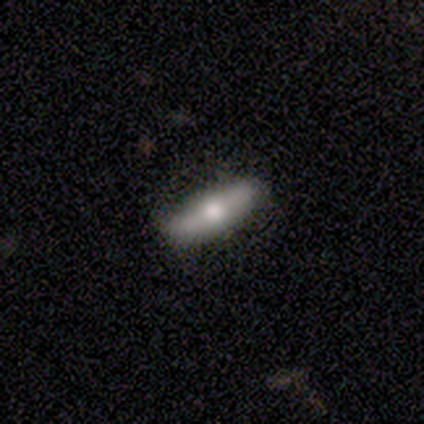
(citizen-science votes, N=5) Overall: featured or disk (60%; smooth 40%). Edge-on disk: no (67%; yes 33%). Bar: no (100%). Spiral arms: no (100%). Bulge size: moderate (50%, tied with small). Merging: none (100%).